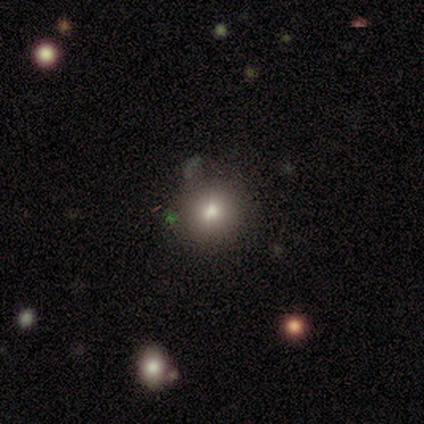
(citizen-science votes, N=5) smooth 100%, featured or disk 0%, star or artifact 0%. Down the decision tree: how rounded — round (100%); merging — none (60%).